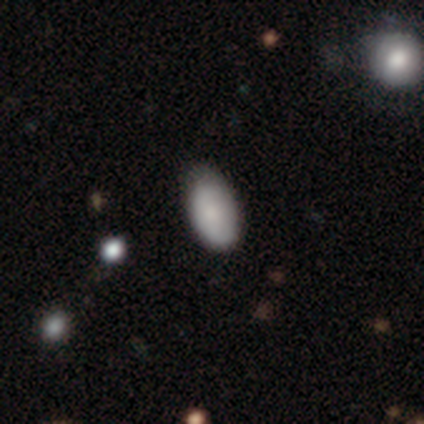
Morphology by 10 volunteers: A smooth galaxy with no disk features (90%) that is in between round and cigar-shaped (100%).

Vote fractions:
- Smooth or featured? smooth: 90% / featured or disk: 10% / star or artifact: 0%
- How rounded? in between: 100% / round: 0% / cigar-shaped: 0%
- Merging? none: 60% / minor disturbance: 30% / major disturbance: 10% / merger: 0%